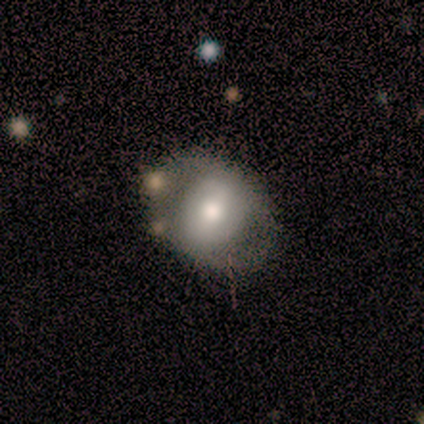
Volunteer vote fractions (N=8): Smooth or featured? 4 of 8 (50%) said smooth. How rounded? 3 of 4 (75%) said in between. Merging? 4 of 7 (57%) said none.